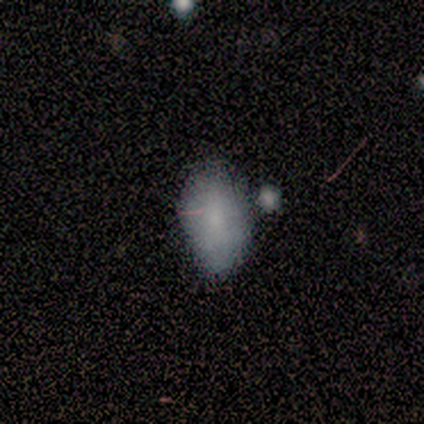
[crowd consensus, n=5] Smooth or featured?
  - smooth: 80% *
  - featured or disk: 20%
  - star or artifact: 0%
How rounded?
  - in between: 100% *
  - round: 0%
  - cigar-shaped: 0%
Merging?
  - none: 60% *
  - minor disturbance: 20%
  - merger: 20%
  - major disturbance: 0%